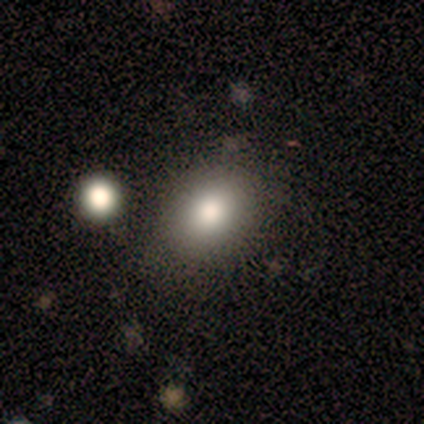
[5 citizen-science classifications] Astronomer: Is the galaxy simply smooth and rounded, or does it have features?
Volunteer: smooth — 100%.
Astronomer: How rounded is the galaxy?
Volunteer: in between — 60% (runner-up: round, 40%).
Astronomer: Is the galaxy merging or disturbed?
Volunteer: none — 80%.